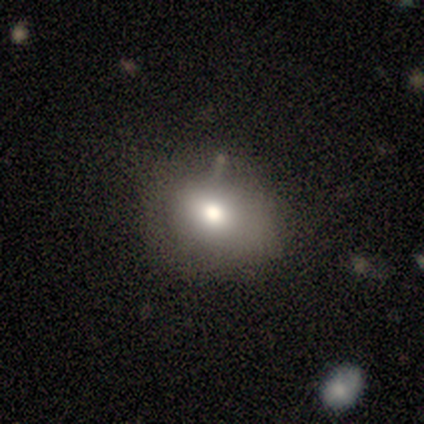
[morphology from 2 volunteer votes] A smooth galaxy with no disk features (100%) that is round (50%, tied with in between).

Vote fractions:
- Smooth or featured? smooth: 100% / featured or disk: 0% / star or artifact: 0%
- How rounded? round: 50% (tied) / in between: 50% (tied) / cigar-shaped: 0%
- Merging? none: 50% (tied) / minor disturbance: 50% (tied) / major disturbance: 0% / merger: 0%